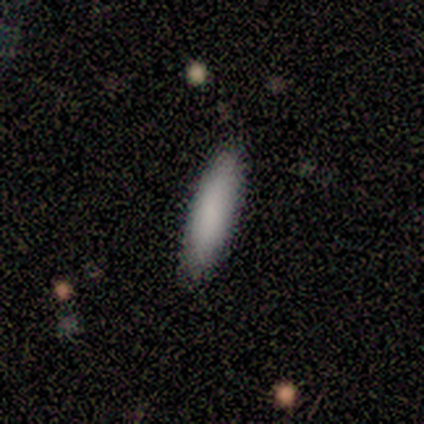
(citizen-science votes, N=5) Volunteers were most divided on "how rounded": cigar-shaped: 60%, in between: 40%, round: 0%. More confident: smooth or featured — smooth (100%); merging — none (100%).